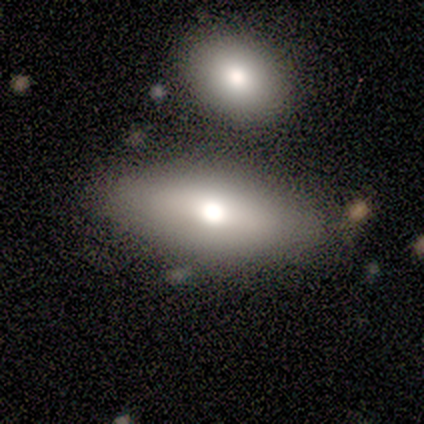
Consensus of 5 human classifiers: Smooth or featured?
  - smooth: 80% *
  - star or artifact: 20%
  - featured or disk: 0%
How rounded?
  - in between: 100% *
  - round: 0%
  - cigar-shaped: 0%
Merging?
  - none: 75% *
  - minor disturbance: 25%
  - major disturbance: 0%
  - merger: 0%